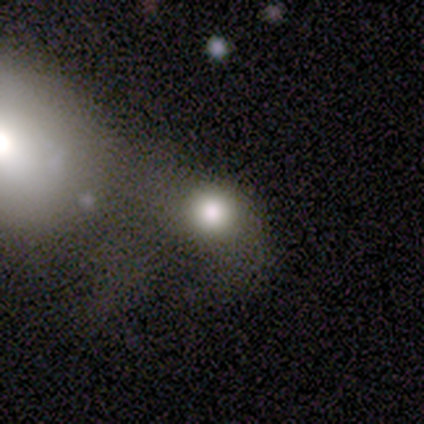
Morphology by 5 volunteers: Smooth or featured: smooth — 100%
How rounded: round — 100%
Merging: none — 40% (tied with merger — 40%)